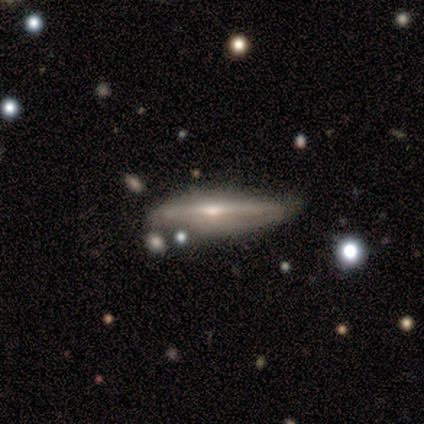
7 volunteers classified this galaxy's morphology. smooth_or_featured: featured or disk (p=0.71) [alt: smooth p=0.14]
disk_edge_on: yes (p=1.00)
edge_on_bulge: rounded (p=1.00)
merging: minor disturbance (p=0.67) [alt: none p=0.33]